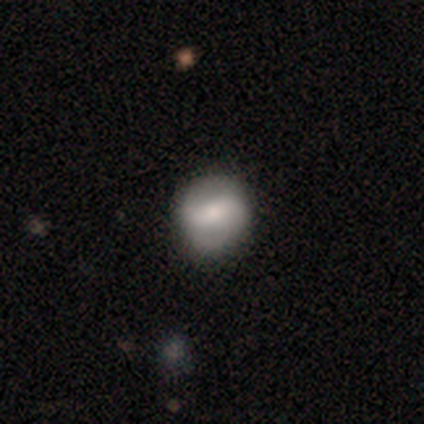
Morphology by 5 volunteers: Smooth or featured?
  - smooth: 40% * (tied)
  - featured or disk: 40% * (tied)
  - star or artifact: 20%
How rounded?
  - round: 100% *
  - in between: 0%
  - cigar-shaped: 0%
Merging?
  - none: 100% *
  - minor disturbance: 0%
  - major disturbance: 0%
  - merger: 0%